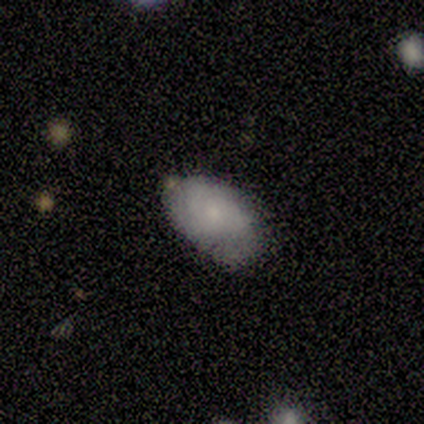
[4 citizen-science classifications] featured or disk 75%, smooth 25%, star or artifact 0%. Down the decision tree: edge-on disk — no (100%); bar — no (100%); spiral arms — yes (100%); spiral arm count — can't tell (100%); spiral winding — medium (67%); bulge size — small (67%); merging — minor disturbance (75%).